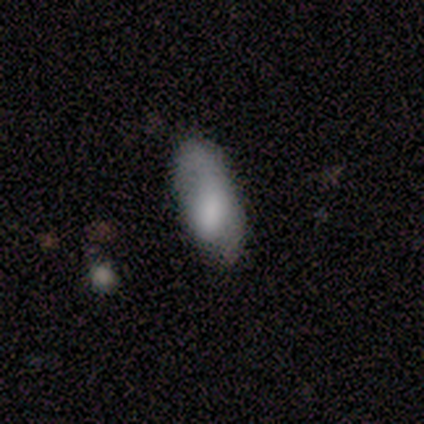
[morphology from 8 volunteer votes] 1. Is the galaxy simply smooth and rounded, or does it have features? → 62% smooth, 38% featured or disk, 0% star or artifact.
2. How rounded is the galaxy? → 100% in between, 0% round, 0% cigar-shaped.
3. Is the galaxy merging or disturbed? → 38% none (tied), 38% minor disturbance (tied), 25% major disturbance, 0% merger.